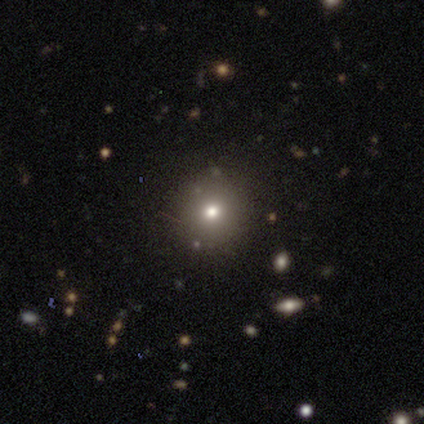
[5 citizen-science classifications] A smooth galaxy with no disk features (80%) that is round (100%).

Vote fractions:
- Smooth or featured? smooth: 80% / star or artifact: 20% / featured or disk: 0%
- How rounded? round: 100% / in between: 0% / cigar-shaped: 0%
- Merging? none: 100% / minor disturbance: 0% / major disturbance: 0% / merger: 0%